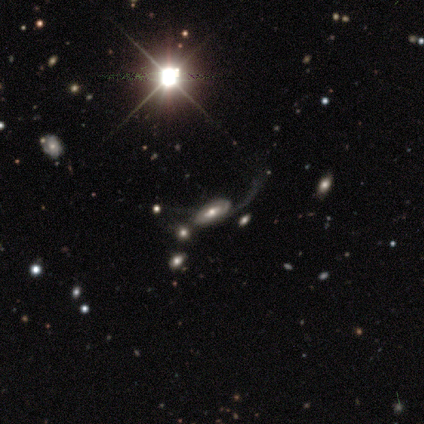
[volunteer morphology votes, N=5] Smooth or featured? 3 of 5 (60%) said featured or disk. Edge-on disk? 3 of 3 (100%) said no. Bar? 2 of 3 (67%) said weak. Spiral arms? 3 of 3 (100%) said yes. Spiral winding? 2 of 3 (67%) said tight. Spiral arm count? 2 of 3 (67%) said can't tell. Bulge size? 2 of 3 (67%) said moderate. Merging? 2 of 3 (67%) said merger.